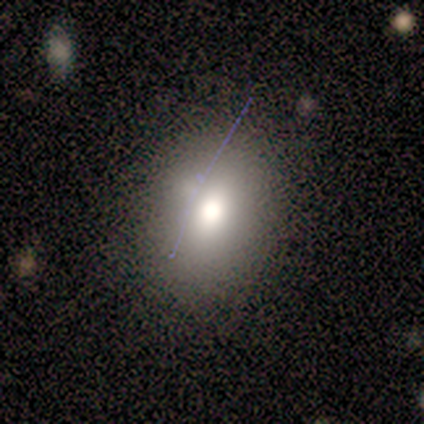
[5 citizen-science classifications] Morphology: type=smooth (80%); roundness=round (75%); merging=none (75%).